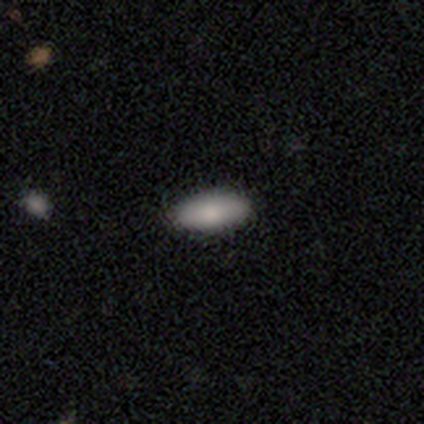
Q: Smooth or featured?
A: smooth (85%); runner-up: featured or disk (15%)
Q: How rounded?
A: in between (91%); runner-up: cigar-shaped (9%)
Q: Merging?
A: none (77%); runner-up: minor disturbance (23%)